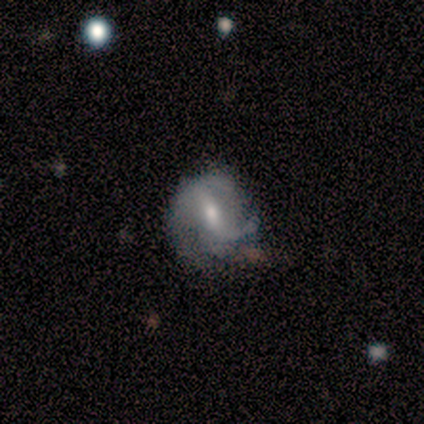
A featured or disk galaxy (89%) with no bar (50%), 2 (40%, tied with 3) medium (40%, tied with loose) spiral arms (83%) and a small central bulge (67%).

Vote fractions:
- Smooth or featured? featured or disk: 89% / smooth: 11% / star or artifact: 0%
- Edge-on disk? no: 75% / yes: 25%
- Bar? no: 50% / strong: 33% / weak: 17%
- Spiral arms? yes: 83% / no: 17%
- Spiral winding? medium: 40% (tied) / loose: 40% (tied) / tight: 20%
- Spiral arm count? 2: 40% (tied) / 3: 40% (tied) / can't tell: 20% / 1: 0% / 4: 0% / more than 4: 0%
- Bulge size? small: 67% / moderate: 33% / dominant: 0% / large: 0% / none: 0%
- Merging? none: 67% / minor disturbance: 22% / major disturbance: 11% / merger: 0%